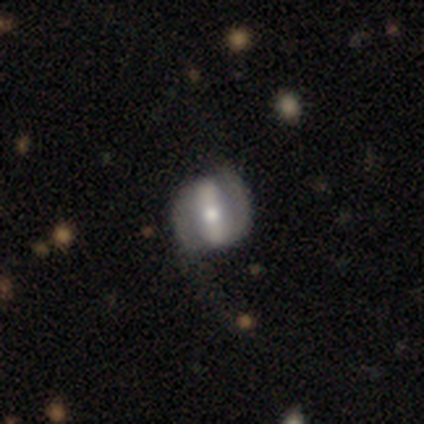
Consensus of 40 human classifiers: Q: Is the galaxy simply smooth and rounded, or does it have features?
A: featured or disk — 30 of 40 (75%).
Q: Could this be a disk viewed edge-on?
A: no — 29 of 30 (97%).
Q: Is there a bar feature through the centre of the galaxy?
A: strong — 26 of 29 (90%).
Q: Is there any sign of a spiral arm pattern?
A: yes — 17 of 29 (59%).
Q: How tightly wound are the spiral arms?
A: tight — 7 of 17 (41%).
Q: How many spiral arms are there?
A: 2 — 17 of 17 (100%).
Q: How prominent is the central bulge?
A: moderate — 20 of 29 (69%).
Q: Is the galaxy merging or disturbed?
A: none — 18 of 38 (47%).